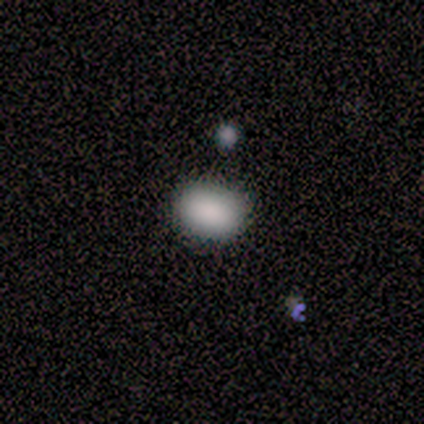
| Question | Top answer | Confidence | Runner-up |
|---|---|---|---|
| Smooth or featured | smooth | 71% | featured or disk (14%) |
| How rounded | in between | 100% | — |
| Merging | none | 100% | — |